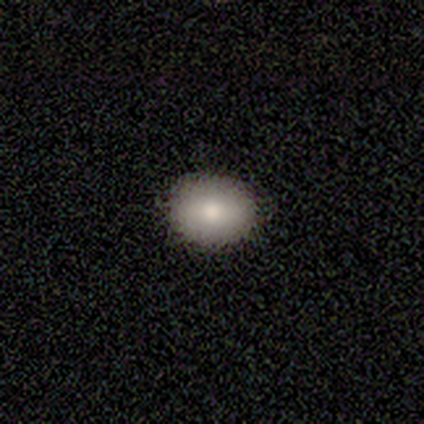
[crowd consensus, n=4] Smooth or featured: smooth — 75% (star or artifact — 25%)
How rounded: in between — 67% (round — 33%)
Merging: none — 100%